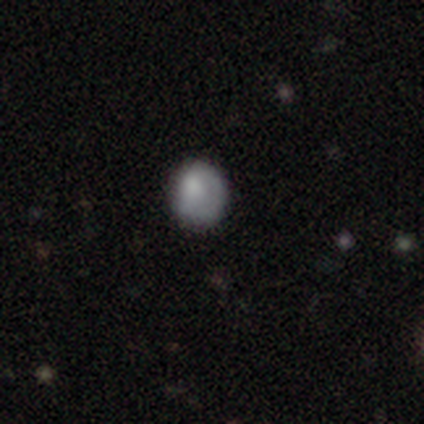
Smooth or featured? 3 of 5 (60%) said smooth. How rounded? 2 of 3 (67%) said round. Merging? 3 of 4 (75%) said none.